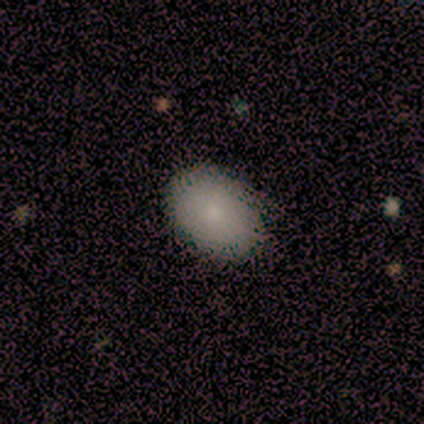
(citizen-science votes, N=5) Overall: smooth (100%). How rounded: in between (100%). Merging: none (80%).